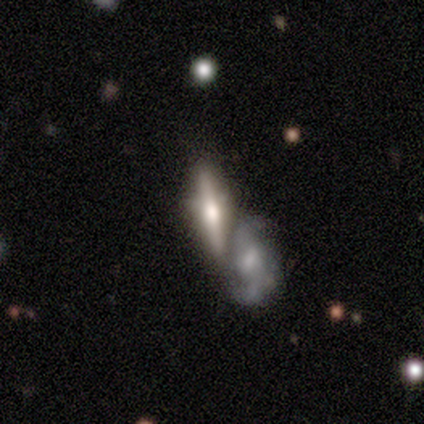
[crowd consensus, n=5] Smooth or featured: featured or disk — 100%
Edge-on disk: yes — 100%
Edge-on bulge: rounded — 100%
Merging: none — 60% (merger — 40%)